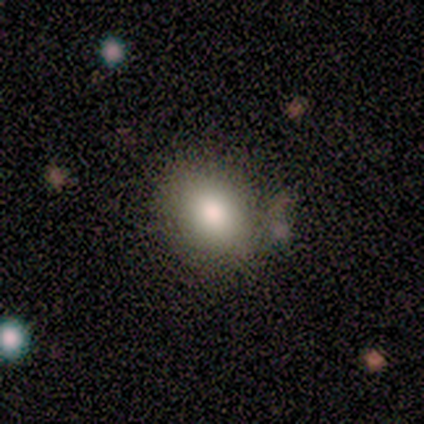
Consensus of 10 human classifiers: Volunteers were most divided on "merging": none: 60%, minor disturbance: 30%, major disturbance: 10%, merger: 0%. More confident: smooth or featured — smooth (100%); how rounded — round (70%).